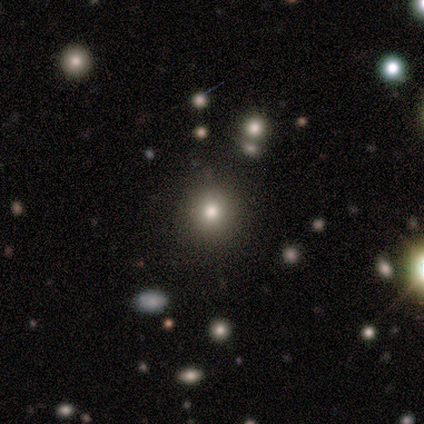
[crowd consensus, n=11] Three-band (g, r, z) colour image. It shows a smooth galaxy with no disk features (64%) that is round (100%). Merging: none (90%).